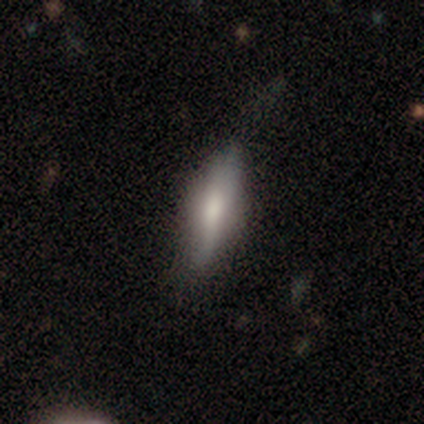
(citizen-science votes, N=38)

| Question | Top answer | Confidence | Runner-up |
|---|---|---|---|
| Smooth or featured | smooth | 68% | featured or disk (21%) |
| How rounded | cigar-shaped | 65% | in between (31%) |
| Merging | none | 59% | minor disturbance (35%) |